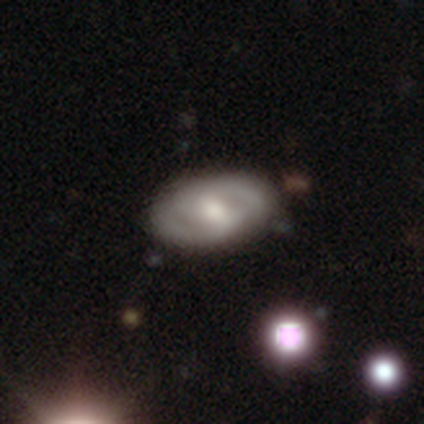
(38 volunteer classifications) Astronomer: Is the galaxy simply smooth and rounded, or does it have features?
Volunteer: featured or disk — 74%.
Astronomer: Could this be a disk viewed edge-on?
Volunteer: no — 100%.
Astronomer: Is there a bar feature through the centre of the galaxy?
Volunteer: weak — 39%, tied with no at 39%.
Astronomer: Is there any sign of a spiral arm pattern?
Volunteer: yes — 68%.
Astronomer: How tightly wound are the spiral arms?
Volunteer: medium — 42% (runner-up: tight, 37%).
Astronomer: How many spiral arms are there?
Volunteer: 2 — 79%.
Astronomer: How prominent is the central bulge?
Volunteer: moderate — 50% (runner-up: small, 29%).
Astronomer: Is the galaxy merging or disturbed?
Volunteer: none — 84%.